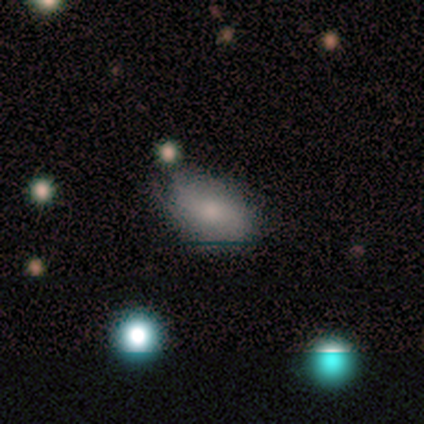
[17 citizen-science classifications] Smooth or featured? 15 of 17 (88%) said smooth. How rounded? 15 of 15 (100%) said in between. Merging? 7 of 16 (44%, tied with minor disturbance) said none.